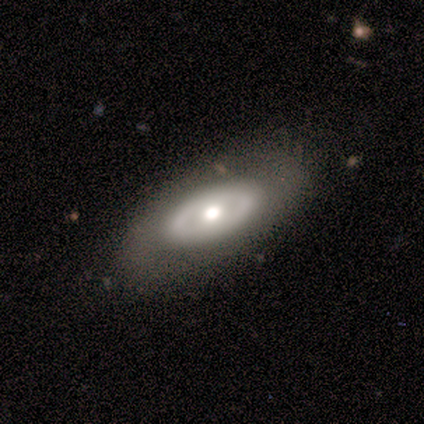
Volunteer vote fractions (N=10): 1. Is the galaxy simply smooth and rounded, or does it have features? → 70% featured or disk, 30% smooth, 0% star or artifact.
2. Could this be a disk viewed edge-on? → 100% no, 0% yes.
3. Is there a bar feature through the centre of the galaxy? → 71% no, 29% weak, 0% strong.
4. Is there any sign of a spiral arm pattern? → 86% no, 14% yes.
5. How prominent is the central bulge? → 86% moderate, 14% small, 0% dominant, 0% large, 0% none.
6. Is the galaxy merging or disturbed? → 100% none, 0% minor disturbance, 0% major disturbance, 0% merger.